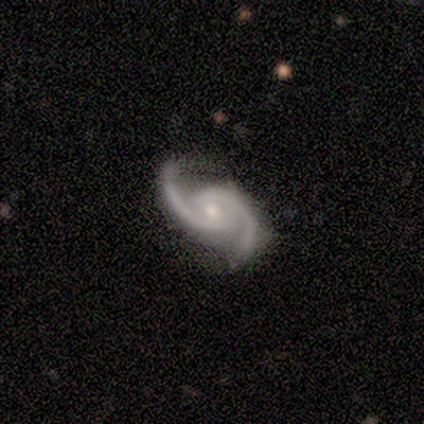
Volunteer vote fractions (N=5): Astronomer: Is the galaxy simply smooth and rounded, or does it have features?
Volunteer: featured or disk — 80%.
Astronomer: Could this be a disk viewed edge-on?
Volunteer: no — 100%.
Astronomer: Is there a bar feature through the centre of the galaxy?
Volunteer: weak — 50%.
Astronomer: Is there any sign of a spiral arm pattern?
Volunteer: yes — 100%.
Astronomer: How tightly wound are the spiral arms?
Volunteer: tight — 50%, tied with medium at 50%.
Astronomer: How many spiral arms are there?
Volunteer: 2 — 100%.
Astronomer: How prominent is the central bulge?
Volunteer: small — 75%.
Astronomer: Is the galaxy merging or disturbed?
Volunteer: none — 75%.